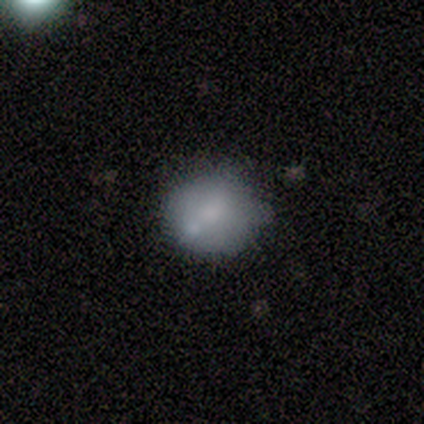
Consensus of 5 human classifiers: Smooth or featured? smooth (100%)
How rounded? round (80%)
Merging? none (40%, tied with minor disturbance)